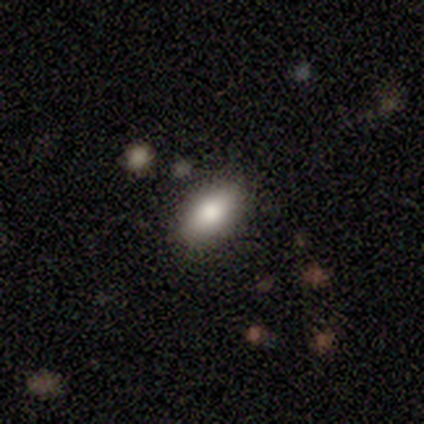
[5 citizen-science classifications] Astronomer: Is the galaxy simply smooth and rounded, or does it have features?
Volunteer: smooth — 100%.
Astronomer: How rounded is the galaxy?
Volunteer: in between — 100%.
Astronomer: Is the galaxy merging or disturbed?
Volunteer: none — 100%.